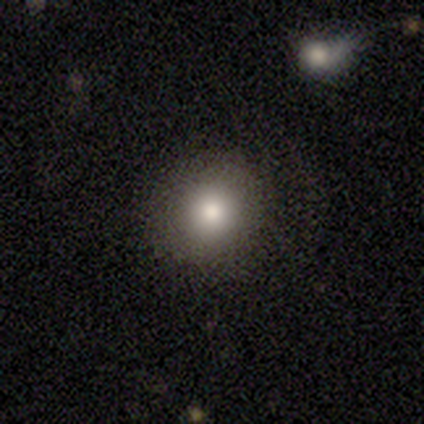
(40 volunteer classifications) Smooth or featured?
  - smooth: 85% *
  - featured or disk: 12%
  - star or artifact: 2%
How rounded?
  - round: 79% *
  - in between: 21%
  - cigar-shaped: 0%
Merging?
  - none: 51% *
  - minor disturbance: 5%
  - major disturbance: 3%
  - merger: 0%